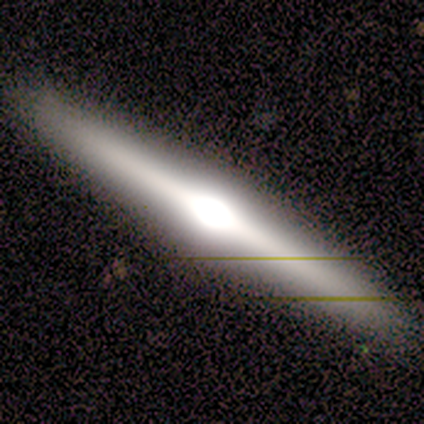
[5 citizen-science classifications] smooth-or-featured: smooth: 40% (tied) | featured or disk: 40% (tied) | star or artifact: 20%
  how-rounded: cigar-shaped: 100% | round: 0% | in between: 0%
  merging: none: 100% | minor disturbance: 0% | major disturbance: 0% | merger: 0%